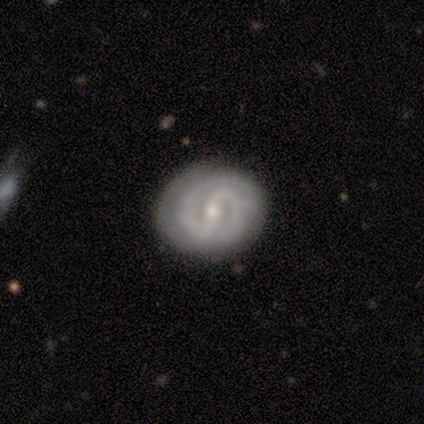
Smooth or featured? featured or disk (100%)
Edge-on disk? no (100%)
Bar? strong (40%, tied with no)
Spiral arms? yes (80%)
Spiral winding? tight (100%)
Spiral arm count? 2 (75%)
Bulge size? small (80%)
Merging? none (80%)